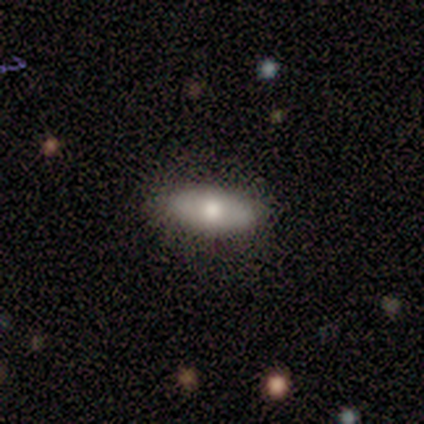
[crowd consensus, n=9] smooth 56%, featured or disk 44%, star or artifact 0%. Down the decision tree: how rounded — in between (100%); merging — none (89%).